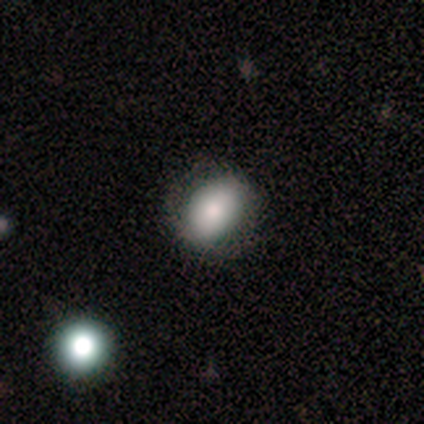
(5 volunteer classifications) This appears to be a smooth galaxy with no disk features (100%) that is in between round and cigar-shaped (80%). Merging: none (80%).